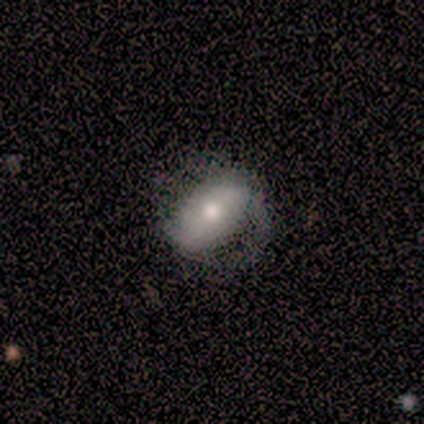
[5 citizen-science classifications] Q: Smooth or featured?
A: smooth (80%); runner-up: featured or disk (20%)
Q: How rounded?
A: in between (75%); runner-up: round (25%)
Q: Merging?
A: none (40%); tied with: minor disturbance (40%)